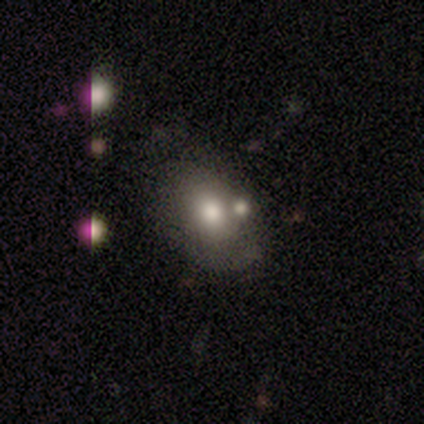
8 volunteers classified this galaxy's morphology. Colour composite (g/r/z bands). It shows a smooth galaxy with no disk features (75%) that is round (50%, tied with in between). Merging: none (71%).